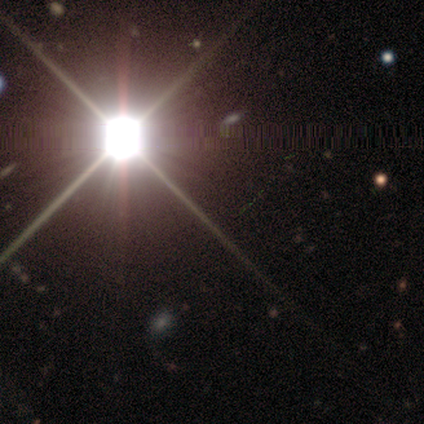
smooth-or-featured: star or artifact: 100% | smooth: 0% | featured or disk: 0%